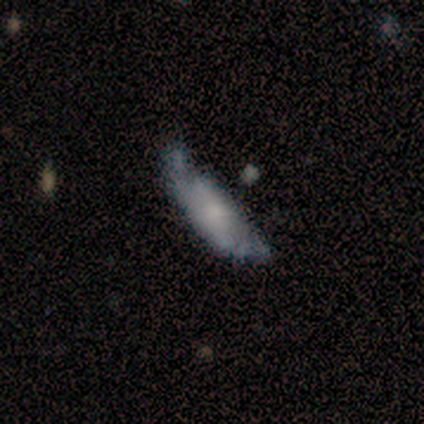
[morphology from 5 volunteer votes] This is likely a smooth galaxy (60%). How rounded: likely in between (67%). Merging: likely none (60%).